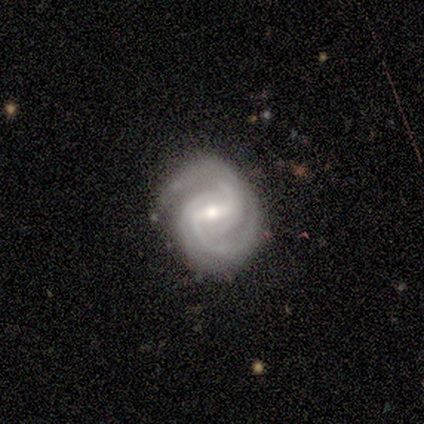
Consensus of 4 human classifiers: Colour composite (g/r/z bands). It shows a featured or disk galaxy (100%) with a strong bar (50%, tied with weak), 2 (50%) tight (50%, tied with medium) spiral arms (100%) and a small central bulge (50%). Merging: none (100%).